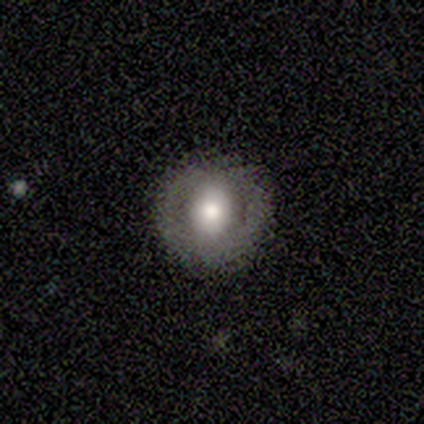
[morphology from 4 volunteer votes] smooth 50% (tied), featured or disk 50% (tied), star or artifact 0%. Down the decision tree: how rounded — round (100%); merging — none (100%).